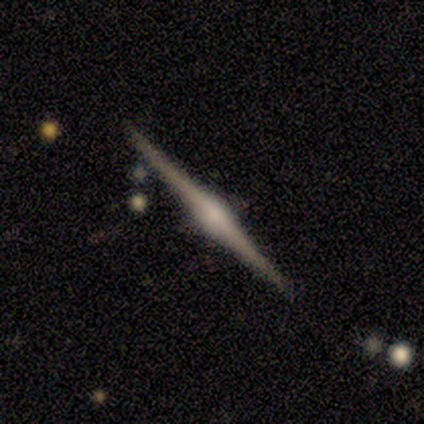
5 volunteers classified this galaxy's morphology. This appears to be a featured or disk galaxy (80%) viewed edge-on (100%) with a rounded central bulge (75%). Merging: none (100%).